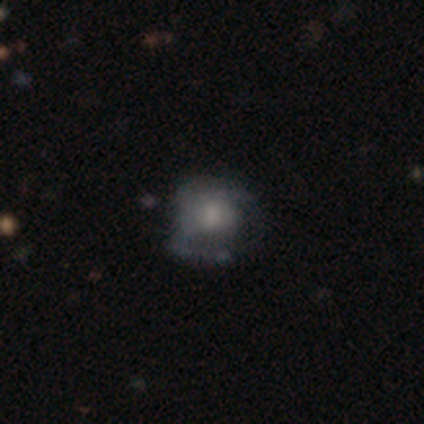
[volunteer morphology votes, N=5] A featured or disk galaxy (100%) with no bar (80%), 3 (50%) tight (75%) spiral arms (80%) and a large central bulge (40%, tied with moderate). Merging: merger (60%).